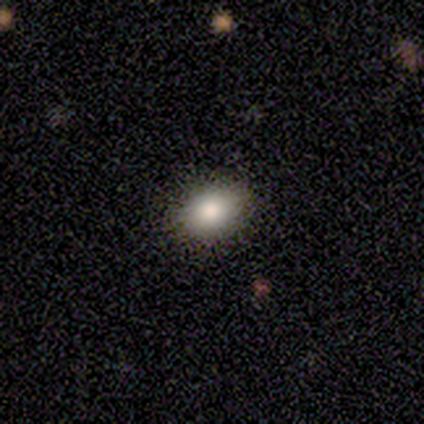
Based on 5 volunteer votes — Consensus on every question: smooth or featured — smooth (100%); how rounded — in between (100%); merging — none (100%).